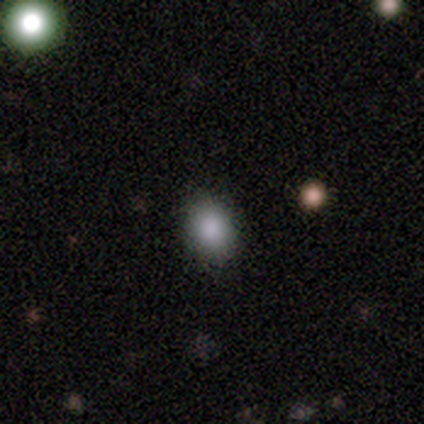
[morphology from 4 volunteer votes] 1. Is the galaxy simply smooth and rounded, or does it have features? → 100% smooth, 0% featured or disk, 0% star or artifact.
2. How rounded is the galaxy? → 50% round (tied), 50% in between (tied), 0% cigar-shaped.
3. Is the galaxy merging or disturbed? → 100% none, 0% minor disturbance, 0% major disturbance, 0% merger.